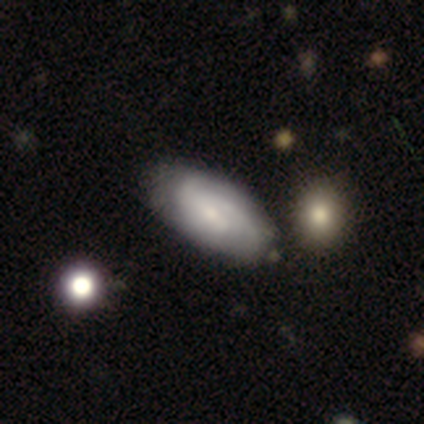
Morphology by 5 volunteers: smooth-or-featured: featured or disk: 60% | smooth: 40% | star or artifact: 0%
  disk-edge-on: no: 100% | yes: 0%
    bar: no: 67% | weak: 33% | strong: 0%
    has-spiral-arms: yes: 100% | no: 0%
      spiral-winding: tight: 67% | medium: 33% | loose: 0%
      spiral-arm-count: 2: 33% (tied) | 3: 33% (tied) | can't tell: 33% (tied) | 1: 0% | 4: 0% | more than 4: 0%
    bulge-size: small: 100% | dominant: 0% | large: 0% | moderate: 0% | none: 0%
  merging: none: 100% | minor disturbance: 0% | major disturbance: 0% | merger: 0%